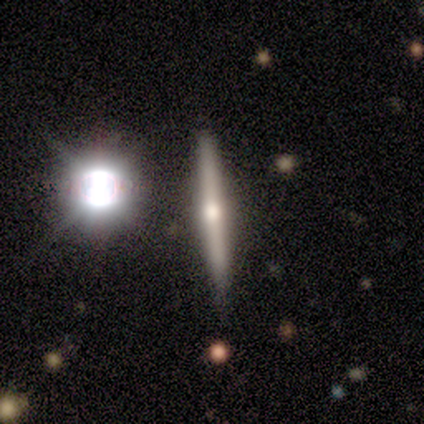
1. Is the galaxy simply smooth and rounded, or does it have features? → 60% featured or disk, 33% smooth, 7% star or artifact.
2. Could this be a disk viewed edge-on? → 89% yes, 11% no.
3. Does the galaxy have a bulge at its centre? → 88% rounded, 12% none, 0% boxy.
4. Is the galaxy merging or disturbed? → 93% none, 7% minor disturbance, 0% major disturbance, 0% merger.